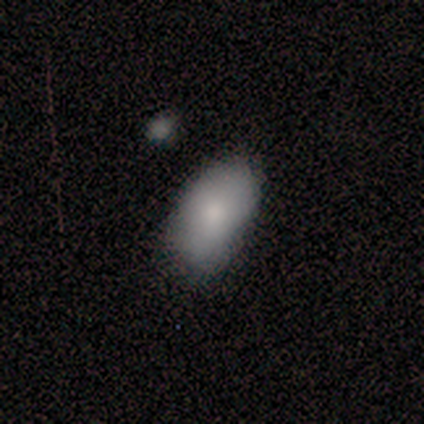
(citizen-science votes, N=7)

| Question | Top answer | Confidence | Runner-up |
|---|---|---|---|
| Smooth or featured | smooth | 100% | — |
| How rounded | in between | 86% | cigar-shaped (14%) |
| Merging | minor disturbance | 57% | none (43%) |